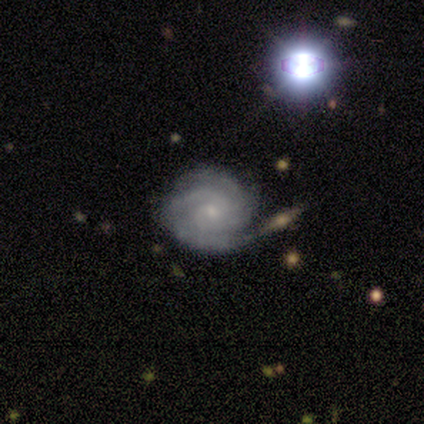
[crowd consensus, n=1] Overall: featured or disk (100%). Edge-on disk: no (100%). Bar: no (100%). Spiral arms: yes (100%). Spiral arm count: can't tell (100%). Spiral winding: tight (100%). Bulge size: small (100%). Merging: none (100%).